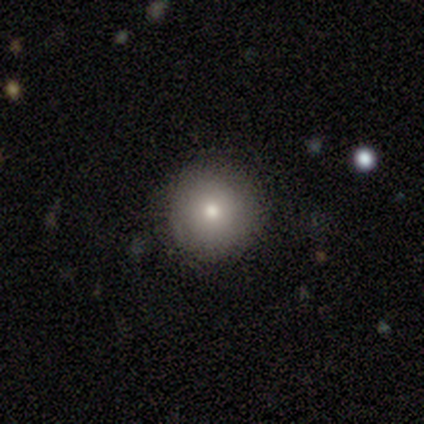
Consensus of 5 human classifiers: Overall: smooth (80%). How rounded: round (100%). Merging: none (100%).